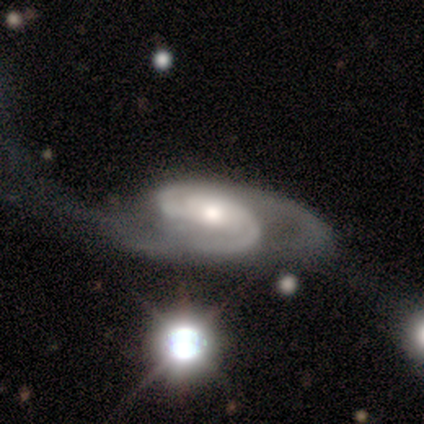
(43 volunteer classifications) Volunteers were most divided on "merging": none: 43%, major disturbance: 40%, minor disturbance: 10%, merger: 7%. More confident: spiral arms — yes (100%); edge-on disk — no (98%); smooth or featured — featured or disk (95%); spiral arm count — 2 (90%); spiral winding — medium (72%); bulge size — moderate (68%); bar — no (57%).